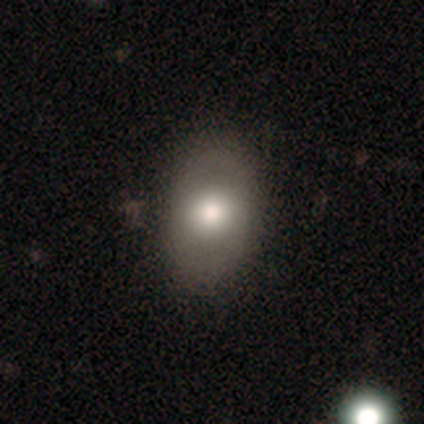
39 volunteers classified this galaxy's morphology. Overall: smooth (54%; featured or disk 28%). How rounded: in between (71%). Merging: none (84%).